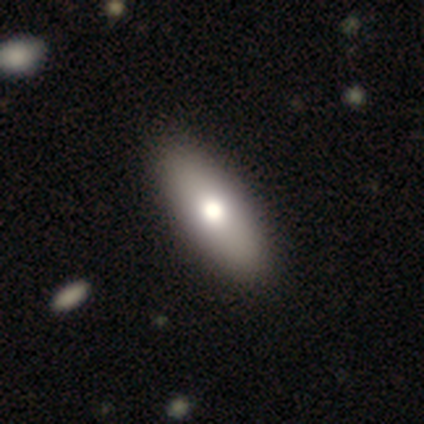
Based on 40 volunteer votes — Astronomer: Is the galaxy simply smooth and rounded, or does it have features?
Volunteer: smooth — 70%.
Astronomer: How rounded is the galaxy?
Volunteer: in between — 64%.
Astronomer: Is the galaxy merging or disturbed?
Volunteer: none — 74%.